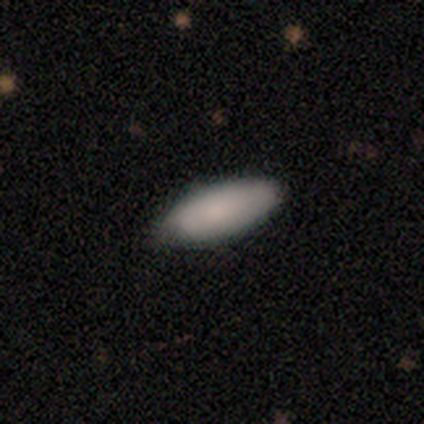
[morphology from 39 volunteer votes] Smooth or featured?
  - smooth: 87% *
  - featured or disk: 10%
  - star or artifact: 3%
How rounded?
  - in between: 76% *
  - cigar-shaped: 24%
  - round: 0%
Merging?
  - none: 74% *
  - minor disturbance: 21%
  - major disturbance: 3%
  - merger: 3%